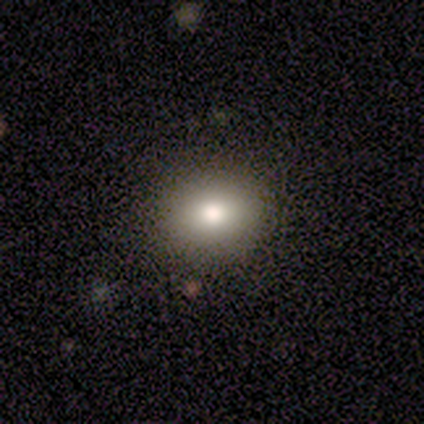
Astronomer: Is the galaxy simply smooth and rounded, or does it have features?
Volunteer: smooth — 80%.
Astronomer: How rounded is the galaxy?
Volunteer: round — 75%.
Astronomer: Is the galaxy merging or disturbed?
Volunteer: none — 100%.